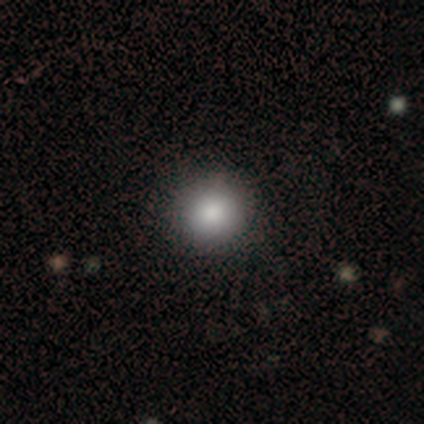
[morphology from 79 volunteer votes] Volunteers were most divided on "merging": none: 44%, minor disturbance: 5%, merger: 1%, major disturbance: 0%. More confident: how rounded — round (97%); smooth or featured — smooth (90%).